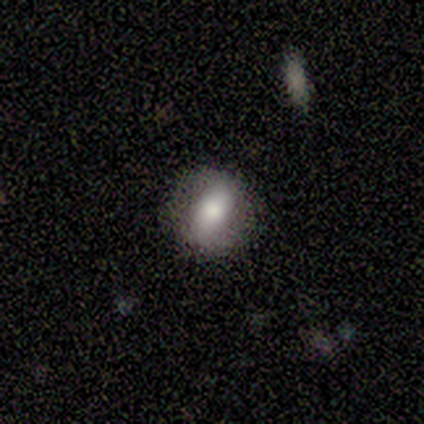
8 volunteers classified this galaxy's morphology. A smooth galaxy with no disk features (50%) that is round (50%, tied with in between).

Vote fractions:
- Smooth or featured? smooth: 50% / featured or disk: 38% / star or artifact: 12%
- How rounded? round: 50% (tied) / in between: 50% (tied) / cigar-shaped: 0%
- Merging? none: 86% / minor disturbance: 14% / major disturbance: 0% / merger: 0%